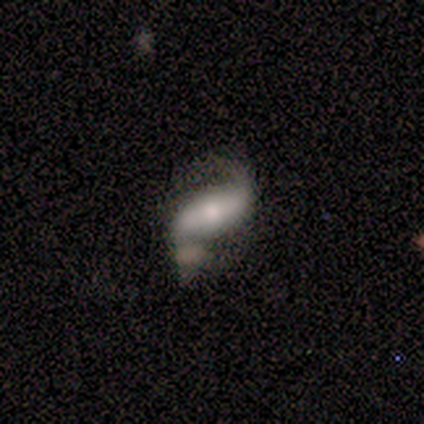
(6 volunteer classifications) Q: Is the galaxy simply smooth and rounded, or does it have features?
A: featured or disk — 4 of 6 (67%).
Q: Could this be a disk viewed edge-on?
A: no — 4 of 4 (100%).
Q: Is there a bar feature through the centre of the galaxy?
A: strong — 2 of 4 (50%, tied with no).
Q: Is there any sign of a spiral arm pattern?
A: yes — 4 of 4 (100%).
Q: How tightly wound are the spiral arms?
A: loose — 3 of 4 (75%).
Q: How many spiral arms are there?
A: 2 — 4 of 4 (100%).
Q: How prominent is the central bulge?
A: large — 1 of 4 (25%, tied with moderate, small and none).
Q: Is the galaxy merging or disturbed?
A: none — 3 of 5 (60%).